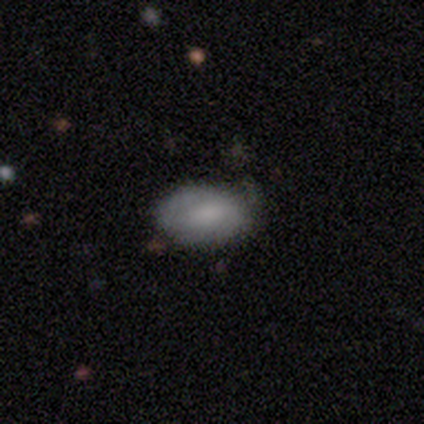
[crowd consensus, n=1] Smooth or featured? featured or disk (100%)
Edge-on disk? no (100%)
Bar? weak (100%)
Spiral arms? no (100%)
Bulge size? none (100%)
Merging? none (100%)